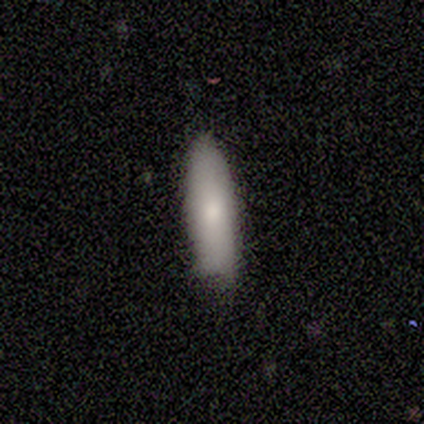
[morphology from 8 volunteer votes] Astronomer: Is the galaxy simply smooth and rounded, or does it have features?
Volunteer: smooth — 75%.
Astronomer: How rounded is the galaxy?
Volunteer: in between — 67%.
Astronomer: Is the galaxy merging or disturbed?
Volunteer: none — 62%.